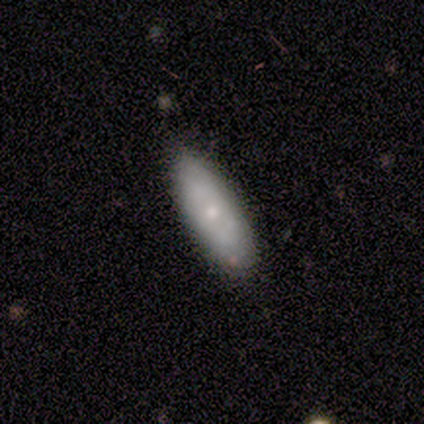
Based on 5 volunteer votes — Smooth or featured? 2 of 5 (40%, tied with star or artifact) said featured or disk. Edge-on disk? 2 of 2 (100%) said no. Bar? 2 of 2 (100%) said no. Spiral arms? 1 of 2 (50%, tied with no) said yes. Spiral winding? 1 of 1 (100%) said tight. Spiral arm count? 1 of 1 (100%) said can't tell. Bulge size? 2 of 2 (100%) said moderate. Merging? 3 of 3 (100%) said none.